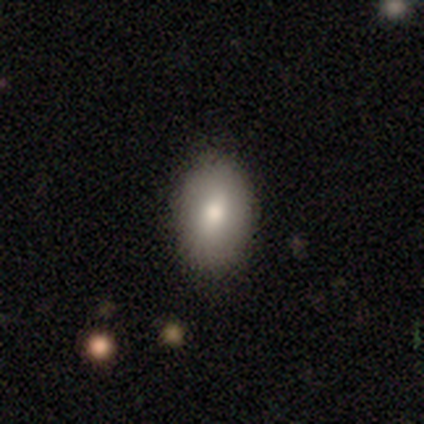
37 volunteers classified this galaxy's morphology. Q: Smooth or featured?
A: smooth (78%); runner-up: featured or disk (11%)
Q: How rounded?
A: in between (90%); runner-up: round (10%)
Q: Merging?
A: none (91%); runner-up: minor disturbance (6%)